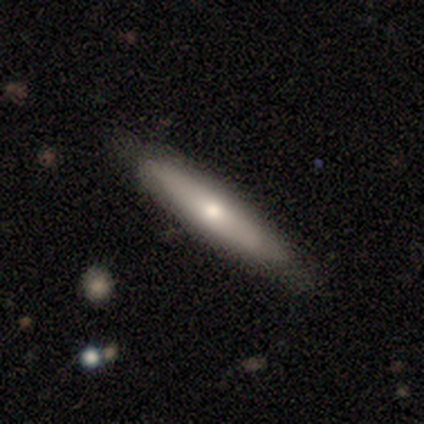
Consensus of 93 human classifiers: This is likely a smooth galaxy (63%). How rounded: clearly cigar-shaped (81%). Merging: clearly none (84%).